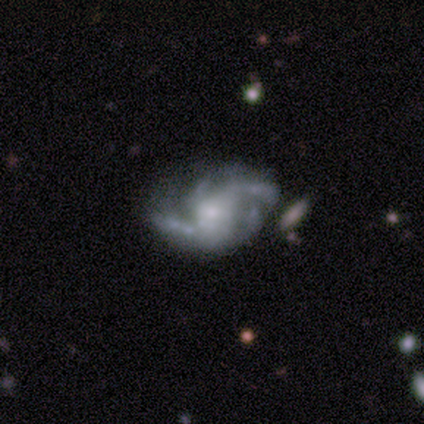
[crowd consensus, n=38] Q: Smooth or featured?
A: featured or disk (76%); runner-up: star or artifact (16%)
Q: Edge-on disk?
A: no (100%)
Q: Bar?
A: no (69%); runner-up: weak (28%)
Q: Spiral arms?
A: yes (97%); runner-up: no (3%)
Q: Spiral winding?
A: medium (46%); runner-up: loose (39%)
Q: Spiral arm count?
A: 2 (46%); runner-up: 3 (25%)
Q: Bulge size?
A: small (41%); runner-up: moderate (38%)
Q: Merging?
A: none (50%); runner-up: minor disturbance (28%)